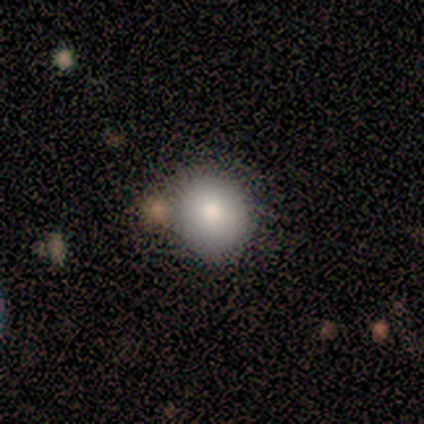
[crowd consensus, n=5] Q: Smooth or featured?
A: smooth (60%); runner-up: featured or disk (20%)
Q: How rounded?
A: round (100%)
Q: Merging?
A: none (50%); runner-up: minor disturbance (25%)